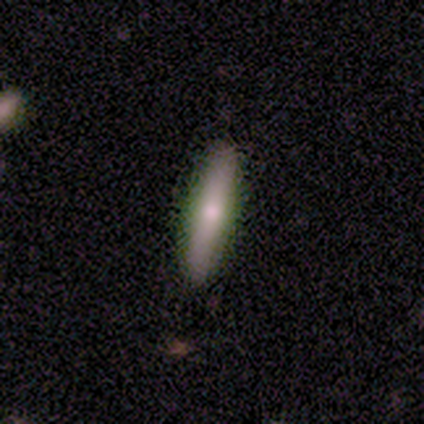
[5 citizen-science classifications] A featured or disk galaxy (60%) viewed edge-on (67%) with a rounded central bulge (100%).

Vote fractions:
- Smooth or featured? featured or disk: 60% / smooth: 40% / star or artifact: 0%
- Edge-on disk? yes: 67% / no: 33%
- Edge-on bulge? rounded: 100% / boxy: 0% / none: 0%
- Merging? none: 100% / minor disturbance: 0% / major disturbance: 0% / merger: 0%